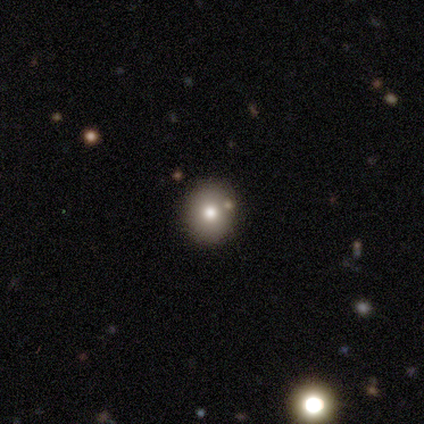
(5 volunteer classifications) Smooth or featured? smooth (80%)
How rounded? round (100%)
Merging? none (80%)